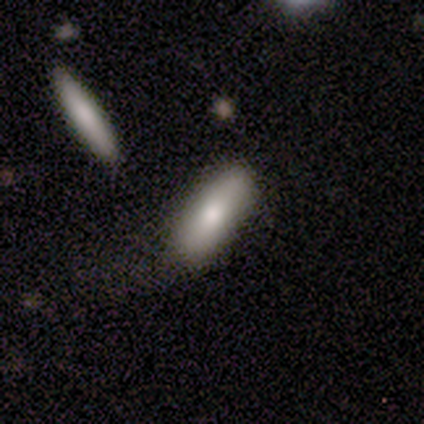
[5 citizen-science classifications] Overall: smooth (60%; featured or disk 20%). How rounded: in between (100%). Merging: none (75%).